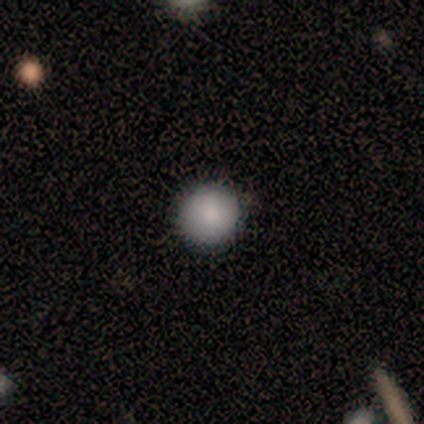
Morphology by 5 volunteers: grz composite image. It shows a smooth galaxy with no disk features (80%) that is round (100%). Merging: none (75%).